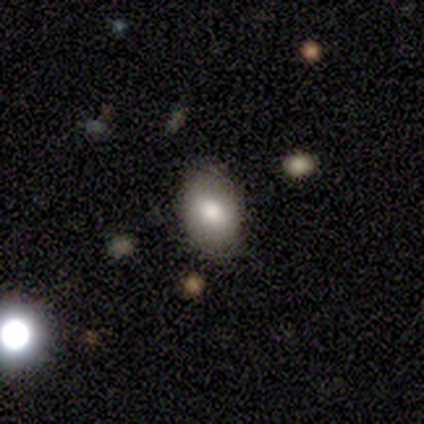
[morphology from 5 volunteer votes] Smooth or featured? 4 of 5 (80%) said smooth. How rounded? 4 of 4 (100%) said in between. Merging? 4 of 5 (80%) said none.